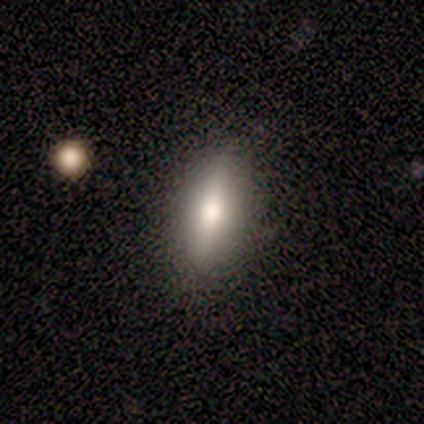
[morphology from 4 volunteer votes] Volunteers were most divided on "smooth or featured": smooth: 50%, featured or disk: 25%, star or artifact: 25%. More confident: how rounded — in between (100%); merging — none (100%).